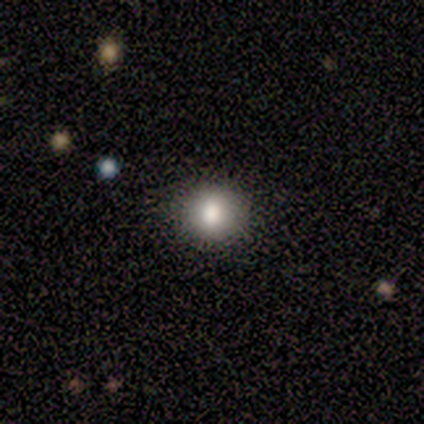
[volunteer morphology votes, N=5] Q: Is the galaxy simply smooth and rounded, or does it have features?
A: smooth — 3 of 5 (60%).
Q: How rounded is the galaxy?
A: round — 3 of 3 (100%).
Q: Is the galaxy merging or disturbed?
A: none — 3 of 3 (100%).